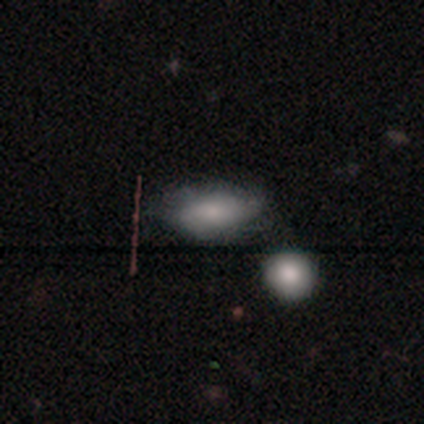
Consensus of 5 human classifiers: Volunteers were most divided on "merging": none: 60%, minor disturbance: 20%, major disturbance: 20%, merger: 0%. More confident: smooth or featured — smooth (80%); how rounded — in between (75%).